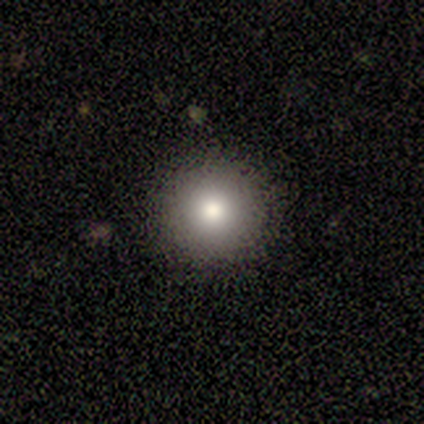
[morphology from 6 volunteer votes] Q: Smooth or featured?
A: smooth (50%); tied with: featured or disk (50%)
Q: How rounded?
A: round (100%)
Q: Merging?
A: none (100%)